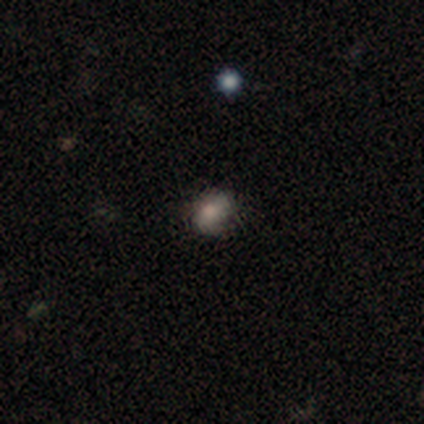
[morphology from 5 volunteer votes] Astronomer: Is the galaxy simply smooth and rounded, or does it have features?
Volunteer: smooth — 80%.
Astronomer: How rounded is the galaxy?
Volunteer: in between — 75%.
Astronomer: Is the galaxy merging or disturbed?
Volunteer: none — 80%.